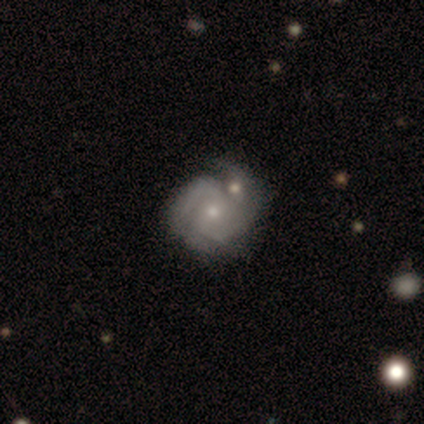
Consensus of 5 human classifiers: Smooth or featured?
  - featured or disk: 80% *
  - star or artifact: 20%
  - smooth: 0%
Edge-on disk?
  - no: 100% *
  - yes: 0%
Bar?
  - weak: 75% *
  - no: 25%
  - strong: 0%
Spiral arms?
  - yes: 50% * (tied)
  - no: 50% * (tied)
Spiral winding?
  - tight: 50% * (tied)
  - loose: 50% * (tied)
  - medium: 0%
Spiral arm count?
  - 2: 100% *
  - 1: 0%
  - 3: 0%
  - 4: 0%
  - more than 4: 0%
  - can't tell: 0%
Bulge size?
  - small: 75% *
  - moderate: 25%
  - dominant: 0%
  - large: 0%
  - none: 0%
Merging?
  - none: 50% *
  - major disturbance: 25%
  - merger: 25%
  - minor disturbance: 0%